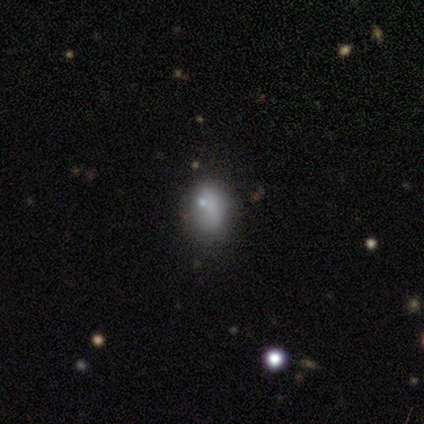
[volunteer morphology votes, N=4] Overall: smooth (50%; featured or disk 25%). How rounded: round (50%, tied with cigar-shaped). Merging: minor disturbance (67%; none 33%).